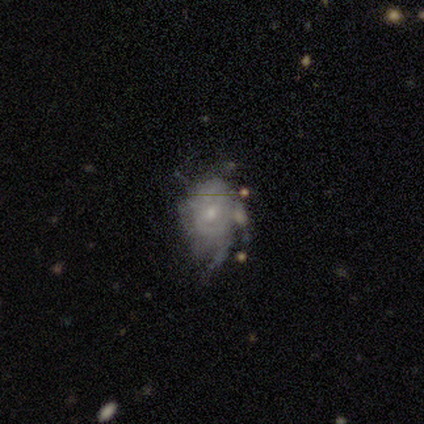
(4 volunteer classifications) Morphology: type=featured or disk (75%); edge-on=no (100%); bar=no (67%); spiral arms=yes (100%); winding=medium (67%); arm count=can't tell (100%); bulge=small (67%); merging=none (75%).